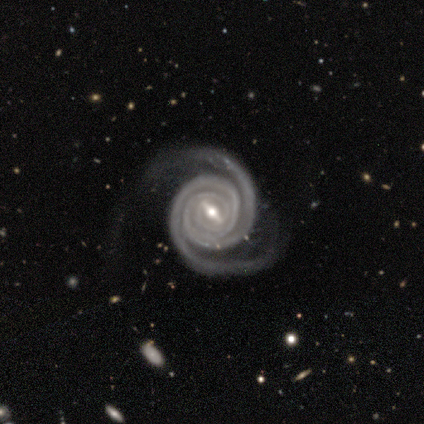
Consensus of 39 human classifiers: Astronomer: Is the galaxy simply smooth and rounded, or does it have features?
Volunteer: featured or disk — 97%.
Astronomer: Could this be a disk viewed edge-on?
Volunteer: no — 100%.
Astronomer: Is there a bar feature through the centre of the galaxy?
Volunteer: strong — 50% (runner-up: weak, 45%).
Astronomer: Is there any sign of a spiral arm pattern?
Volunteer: yes — 97%.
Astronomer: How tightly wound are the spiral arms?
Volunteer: tight — 89%.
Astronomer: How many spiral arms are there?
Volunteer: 2 — 76%.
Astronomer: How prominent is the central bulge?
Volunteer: moderate — 63%.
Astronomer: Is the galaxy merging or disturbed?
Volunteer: none — 66%.